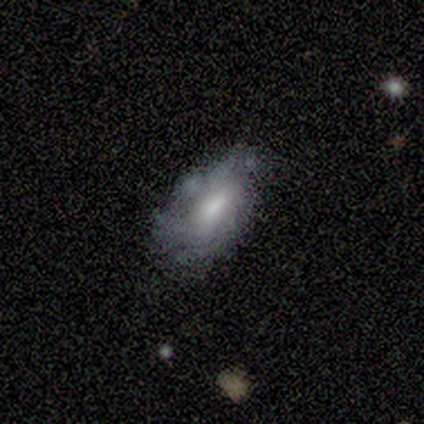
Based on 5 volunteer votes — smooth 60%, featured or disk 40%, star or artifact 0%. Down the decision tree: how rounded — in between (67%); merging — minor disturbance (80%).